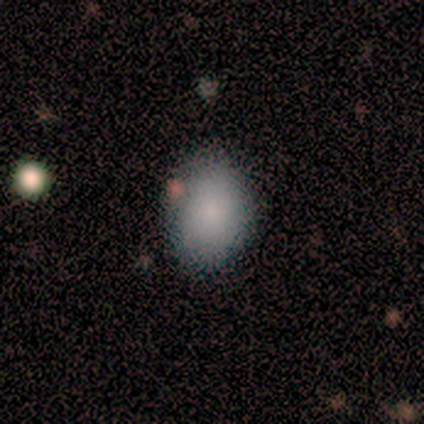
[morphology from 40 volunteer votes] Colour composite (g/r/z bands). It shows a smooth galaxy with no disk features (85%) that is in between round and cigar-shaped (68%). Merging: none (70%).